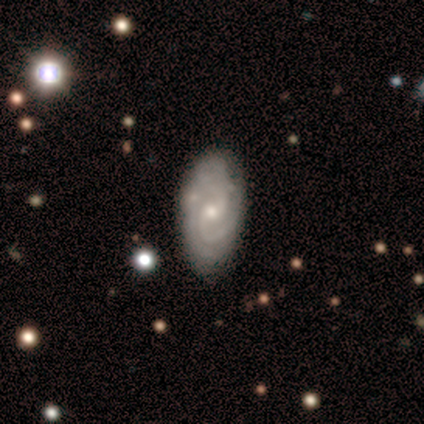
Smooth or featured: featured or disk — 100%
Edge-on disk: no — 100%
Bar: no — 75% (weak — 25%)
Spiral arms: yes — 100%
Spiral winding: tight — 100%
Spiral arm count: 2 — 100%
Bulge size: small — 75% (moderate — 25%)
Merging: none — 75% (minor disturbance — 25%)